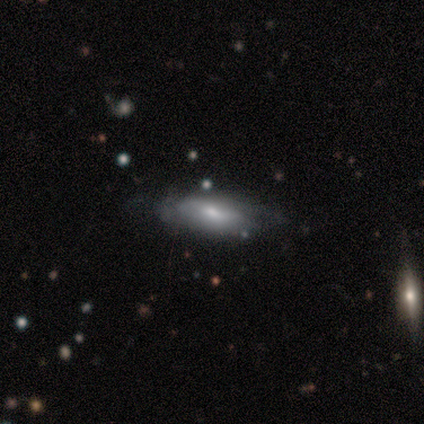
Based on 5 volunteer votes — smooth-or-featured: smooth: 60% | featured or disk: 40% | star or artifact: 0%
  how-rounded: in between: 100% | round: 0% | cigar-shaped: 0%
  merging: none: 40% (tied) | minor disturbance: 40% (tied) | major disturbance: 20% | merger: 0%